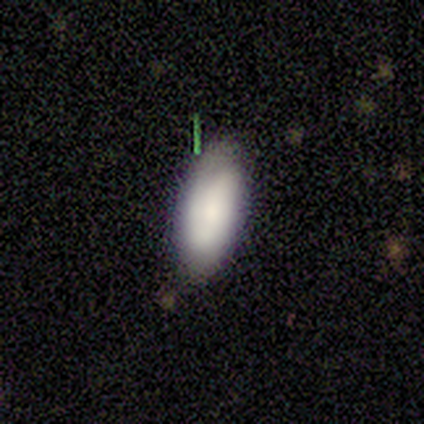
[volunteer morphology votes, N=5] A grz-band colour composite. It shows a smooth galaxy with no disk features (60%) that is in between round and cigar-shaped (100%). Merging: none (80%).